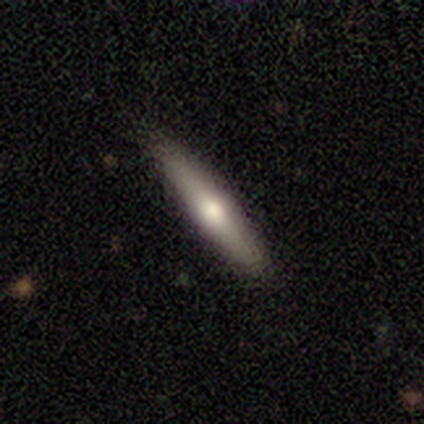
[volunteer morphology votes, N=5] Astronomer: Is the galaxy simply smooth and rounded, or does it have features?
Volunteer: featured or disk — 80%.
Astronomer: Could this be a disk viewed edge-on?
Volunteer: yes — 50%, tied with no at 50%.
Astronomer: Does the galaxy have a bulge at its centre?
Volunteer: boxy — 50%, tied with rounded at 50%.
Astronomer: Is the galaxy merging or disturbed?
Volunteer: none — 80%.